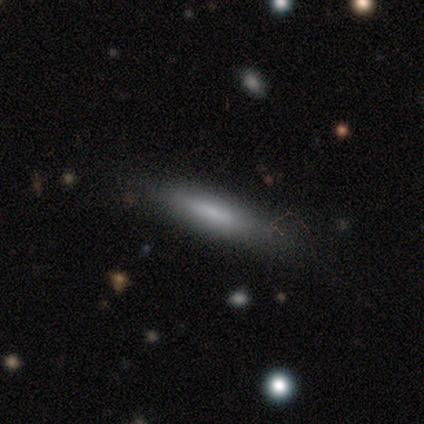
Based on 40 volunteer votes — Overall: smooth (72%). How rounded: cigar-shaped (90%). Merging: none (70%).